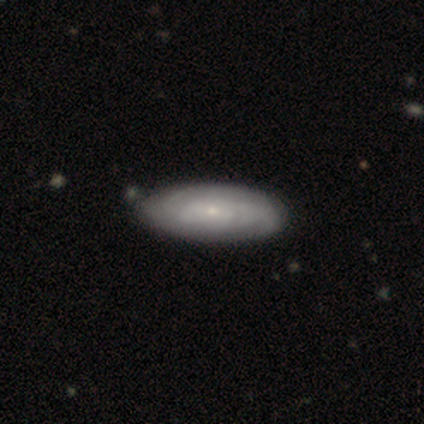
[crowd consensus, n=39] Volunteers were most divided on "bar": no: 54%, weak: 38%, strong: 8%. More confident: edge-on disk — no (100%); spiral arms — yes (85%); bulge size — small (85%); spiral arm count — can't tell (77%); spiral winding — tight (73%); smooth or featured — featured or disk (67%); merging — none (62%).